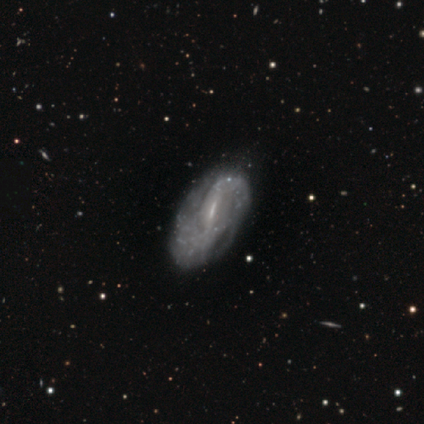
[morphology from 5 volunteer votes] A featured or disk galaxy (80%) with a strong bar (75%), tight (33%, tied with medium and loose) spiral arms (75%) and a small central bulge (75%).

Vote fractions:
- Smooth or featured? featured or disk: 80% / smooth: 20% / star or artifact: 0%
- Edge-on disk? no: 100% / yes: 0%
- Bar? strong: 75% / weak: 25% / no: 0%
- Spiral arms? yes: 75% / no: 25%
- Spiral winding? tight: 33% (tied) / medium: 33% (tied) / loose: 33% (tied)
- Spiral arm count? can't tell: 67% / 2: 33% / 1: 0% / 3: 0% / 4: 0% / more than 4: 0%
- Bulge size? small: 75% / moderate: 25% / dominant: 0% / large: 0% / none: 0%
- Merging? none: 60% / minor disturbance: 40% / major disturbance: 0% / merger: 0%